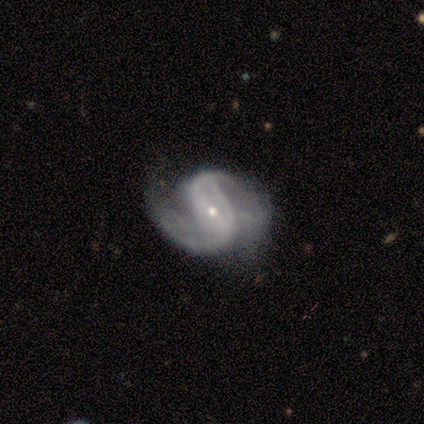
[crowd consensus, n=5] Volunteers were most divided on "spiral winding" (2-way tie): medium: 50%, loose: 50%, tight: 0%. More confident: edge-on disk — no (100%); spiral arms — yes (100%); smooth or featured — featured or disk (80%); spiral arm count — 2 (75%); bulge size — small (75%); merging — none (75%); bar — no (50%).